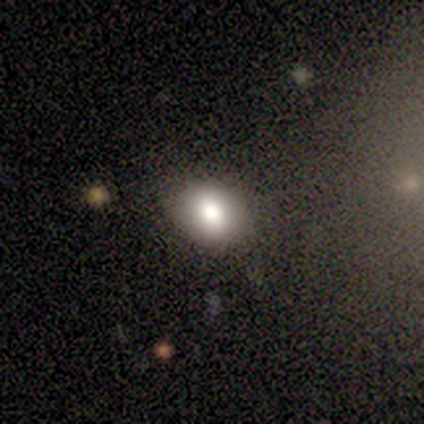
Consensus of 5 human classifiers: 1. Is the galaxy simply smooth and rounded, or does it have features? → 60% smooth, 20% featured or disk, 20% star or artifact.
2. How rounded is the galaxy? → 67% round, 33% in between, 0% cigar-shaped.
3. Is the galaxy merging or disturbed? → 100% none, 0% minor disturbance, 0% major disturbance, 0% merger.